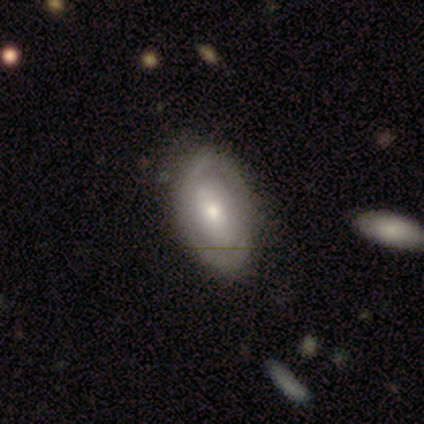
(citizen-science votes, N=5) Smooth or featured? smooth (80%)
How rounded? in between (100%)
Merging? none (60%)